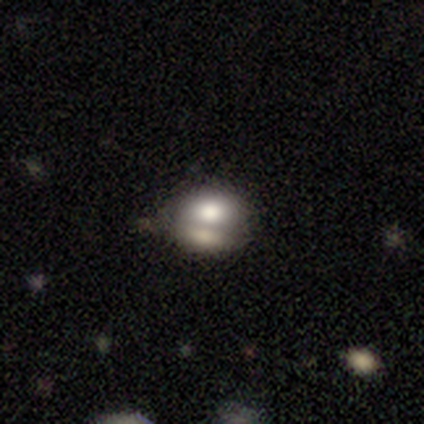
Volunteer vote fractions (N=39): Smooth or featured: smooth — 59% (featured or disk — 26%)
How rounded: in between — 65% (round — 35%)
Merging: merger — 55% (none — 27%)